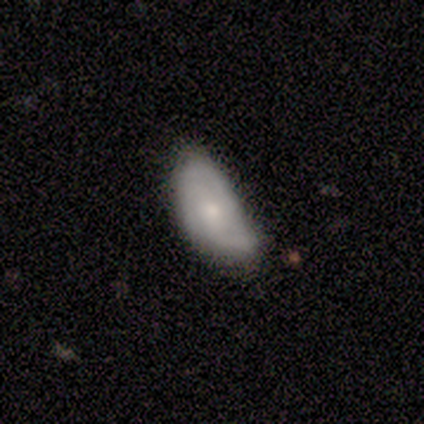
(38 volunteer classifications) This appears to be a smooth galaxy with no disk features (63%) that is in between round and cigar-shaped (88%). Merging: minor disturbance (63%).